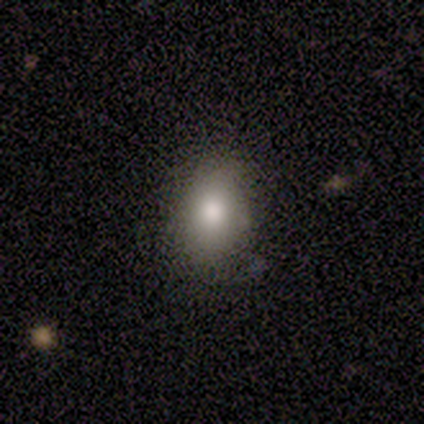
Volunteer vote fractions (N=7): A smooth galaxy with no disk features (100%) that is in between round and cigar-shaped (86%). Merging: none (71%).